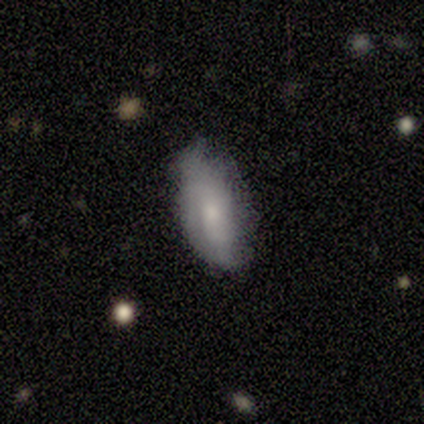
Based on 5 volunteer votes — Smooth or featured? smooth (60%)
How rounded? in between (100%)
Merging? none (75%)